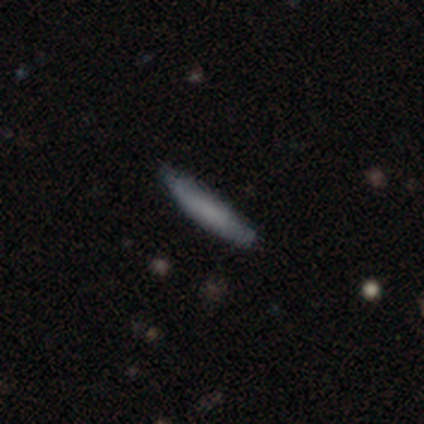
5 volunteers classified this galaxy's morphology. Q: Smooth or featured?
A: smooth (80%); runner-up: star or artifact (20%)
Q: How rounded?
A: cigar-shaped (100%)
Q: Merging?
A: none (75%); runner-up: minor disturbance (25%)